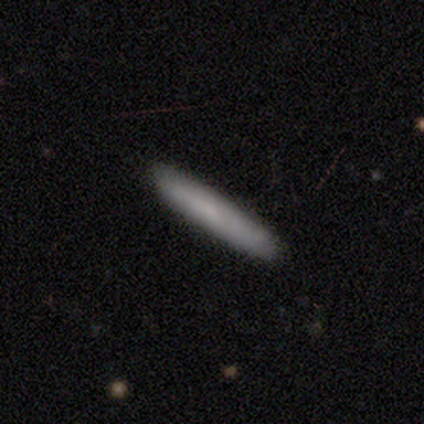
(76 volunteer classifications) Morphology: type=smooth (80%); roundness=cigar-shaped (95%); merging=none (47%).